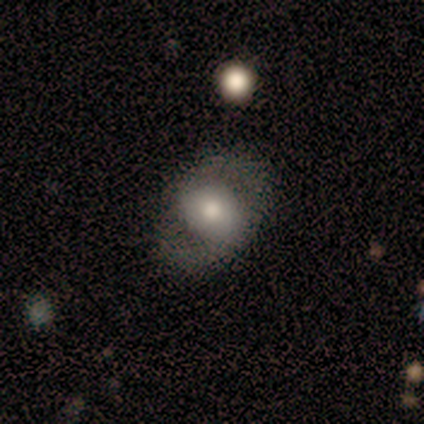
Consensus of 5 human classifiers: Overall: featured or disk (80%). Edge-on disk: no (100%). Bar: weak (50%, tied with no). Spiral arms: yes (50%, tied with no). Spiral arm count: 2 (50%, tied with can't tell). Spiral winding: tight (50%, tied with loose). Bulge size: moderate (50%; large 25%). Merging: none (100%).